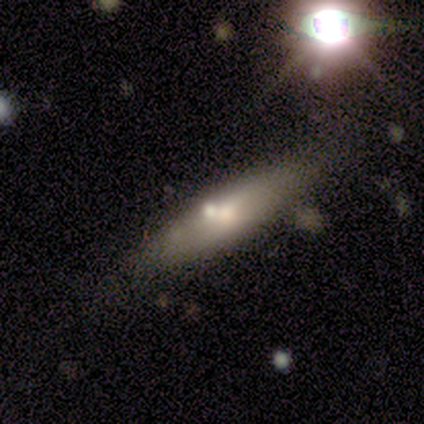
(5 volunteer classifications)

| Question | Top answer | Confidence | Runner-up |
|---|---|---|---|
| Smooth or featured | smooth | 80% | featured or disk (20%) |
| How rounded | in between | 50% | tied: cigar-shaped (50%) |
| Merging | none | 80% | minor disturbance (20%) |